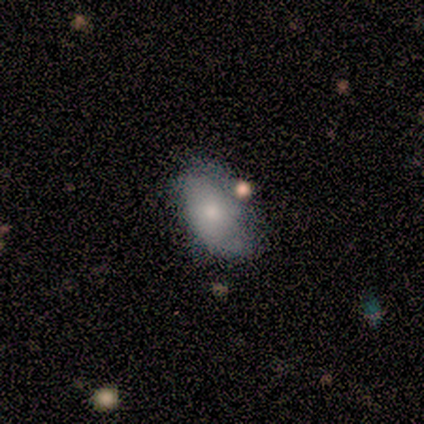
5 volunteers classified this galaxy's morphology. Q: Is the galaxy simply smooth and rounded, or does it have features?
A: smooth — 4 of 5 (80%).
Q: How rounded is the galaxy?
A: in between — 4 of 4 (100%).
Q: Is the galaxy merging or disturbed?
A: none — 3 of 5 (60%).